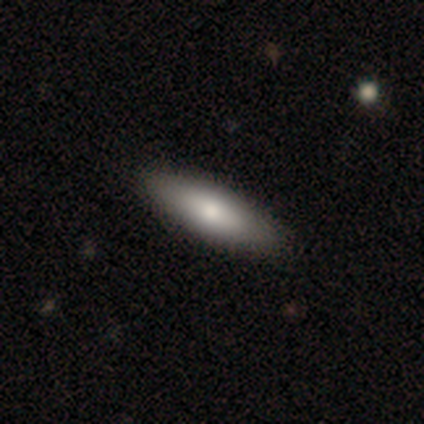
smooth_or_featured: smooth (p=0.72) [alt: featured or disk p=0.25]
how_rounded: in between (p=0.59) [alt: cigar-shaped p=0.38]
merging: none (p=0.77) [alt: minor disturbance p=0.05]